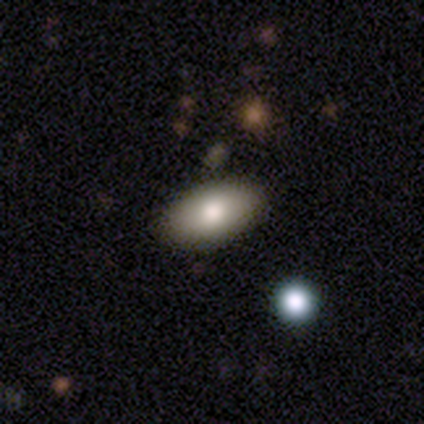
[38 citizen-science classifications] A smooth galaxy with no disk features (87%) that is in between round and cigar-shaped (85%). Merging: none (84%).